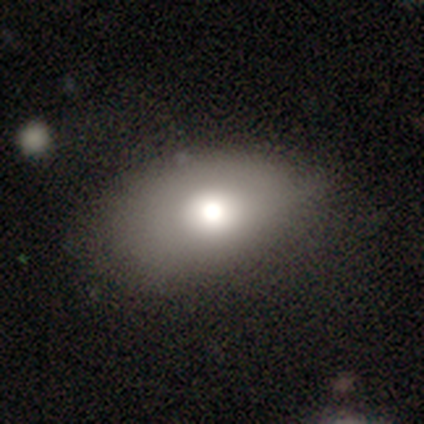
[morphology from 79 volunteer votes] smooth-or-featured: smooth: 73% | featured or disk: 19% | star or artifact: 8%
  how-rounded: in between: 88% | round: 12% | cigar-shaped: 0%
  merging: none: 29% | minor disturbance: 18% | major disturbance: 3% | merger: 1%